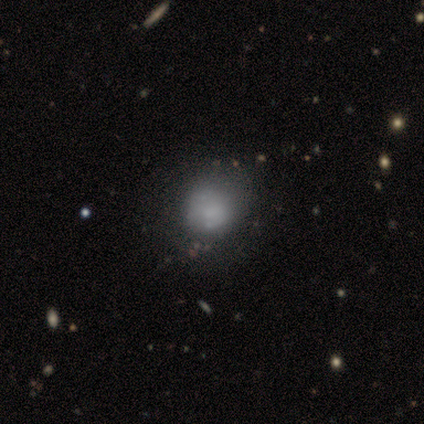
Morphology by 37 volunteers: Q: Smooth or featured?
A: smooth (62%); runner-up: featured or disk (32%)
Q: How rounded?
A: round (74%); runner-up: in between (26%)
Q: Merging?
A: none (37%); runner-up: minor disturbance (23%)